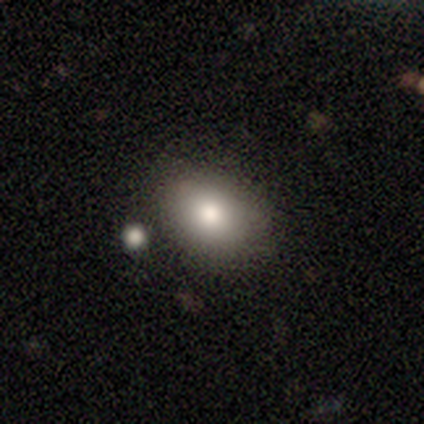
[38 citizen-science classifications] Smooth or featured? smooth (76%)
How rounded? in between (83%)
Merging? none (74%)